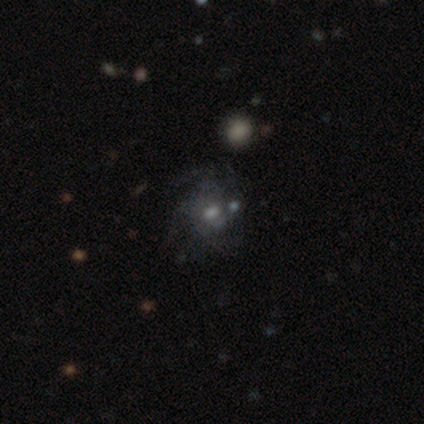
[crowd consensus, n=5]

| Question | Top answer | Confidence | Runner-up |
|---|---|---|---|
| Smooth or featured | featured or disk | 80% | smooth (20%) |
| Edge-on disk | no | 100% | — |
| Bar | weak | 75% | no (25%) |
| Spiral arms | yes | 75% | no (25%) |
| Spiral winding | medium | 67% | tight (33%) |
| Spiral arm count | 4 | 100% | — |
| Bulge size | moderate | 50% | tied: small (50%) |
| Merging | none | 80% | minor disturbance (20%) |